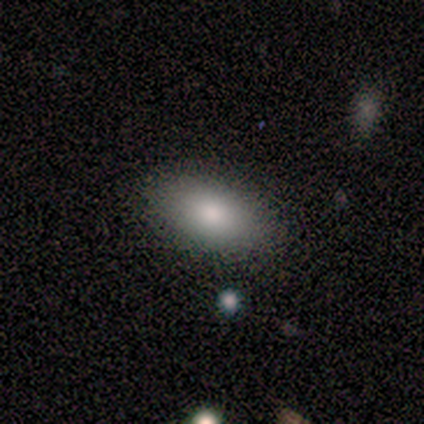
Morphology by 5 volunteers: A smooth galaxy with no disk features (80%) that is in between round and cigar-shaped (100%).

Vote fractions:
- Smooth or featured? smooth: 80% / star or artifact: 20% / featured or disk: 0%
- How rounded? in between: 100% / round: 0% / cigar-shaped: 0%
- Merging? none: 75% / minor disturbance: 25% / major disturbance: 0% / merger: 0%